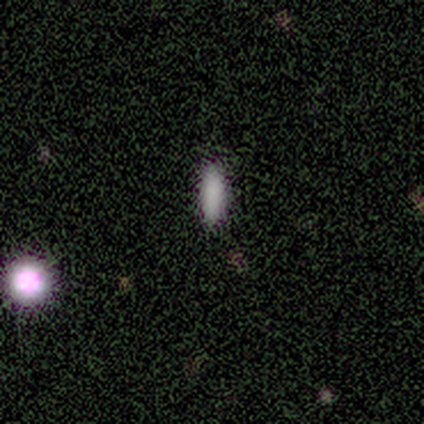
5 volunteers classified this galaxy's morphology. smooth 80%, star or artifact 20%, featured or disk 0%. Down the decision tree: how rounded — in between (75%); merging — none (100%).